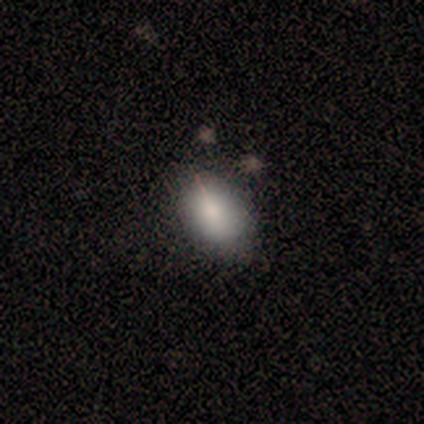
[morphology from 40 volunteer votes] Smooth or featured: smooth — 80% (featured or disk — 10%)
How rounded: in between — 94% (round — 6%)
Merging: none — 47% (minor disturbance — 3%)